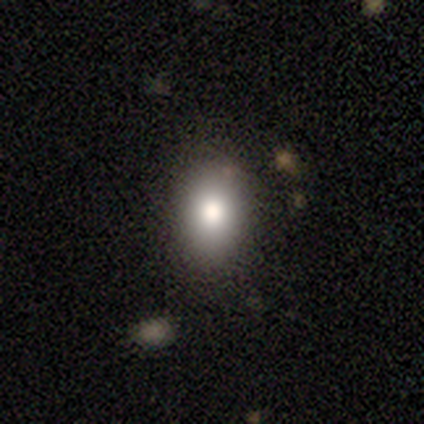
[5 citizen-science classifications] This is clearly a smooth galaxy (80%). How rounded: likely in between (75%). Merging: clearly none (100%).